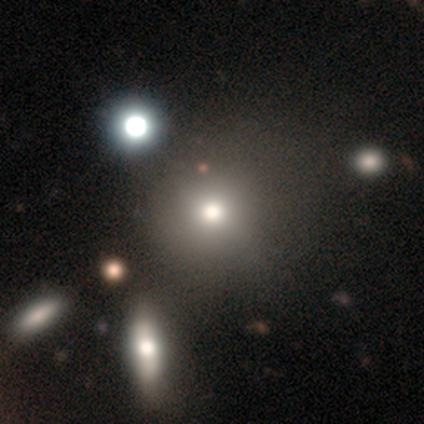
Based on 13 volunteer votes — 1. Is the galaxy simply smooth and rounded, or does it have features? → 85% smooth, 15% featured or disk, 0% star or artifact.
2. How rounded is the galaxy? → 100% round, 0% in between, 0% cigar-shaped.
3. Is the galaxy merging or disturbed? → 77% none, 15% merger, 8% minor disturbance, 0% major disturbance.